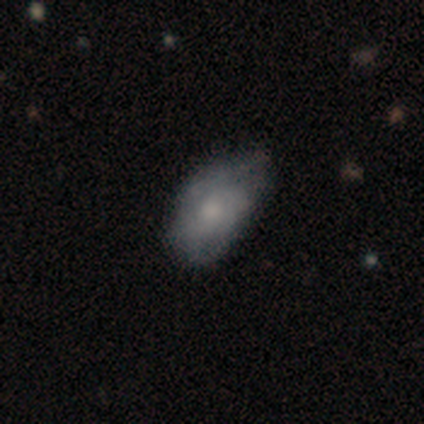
Morphology: type=smooth (75%); roundness=in between (100%); merging=none (50%).